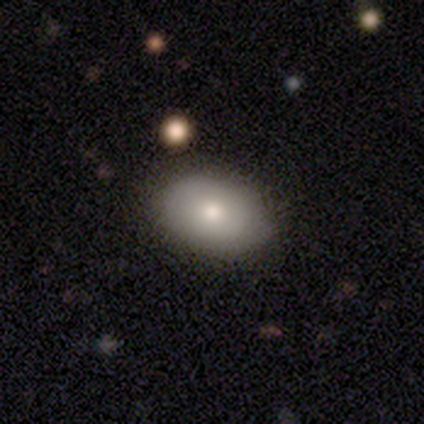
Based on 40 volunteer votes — smooth 75%, featured or disk 20%, star or artifact 5%. Down the decision tree: how rounded — in between (90%); merging — none (63%).